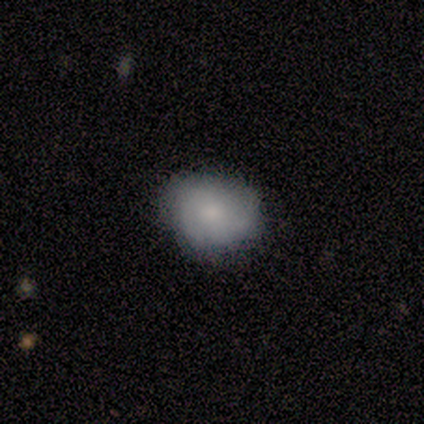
This is clearly a smooth galaxy (100%). How rounded: likely round (67%). Merging: clearly none (83%).